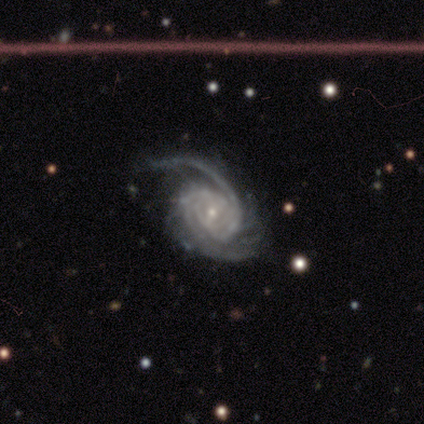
featured or disk 100%, smooth 0%, star or artifact 0%. Down the decision tree: edge-on disk — no (100%); bar — weak (50%, tied with no); spiral arms — yes (100%); spiral arm count — more than 4 (50%); spiral winding — tight (100%); bulge size — small (100%); merging — minor disturbance (50%).